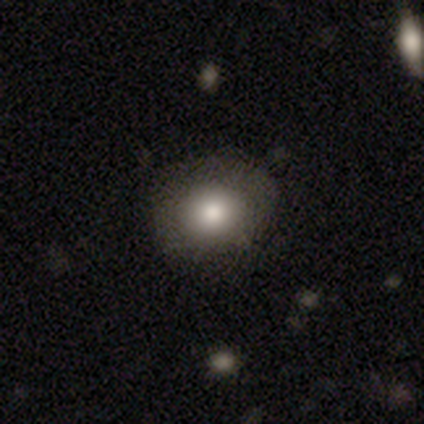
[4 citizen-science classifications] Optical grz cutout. It shows a smooth galaxy with no disk features (100%) that is round (100%). Merging: none (75%).